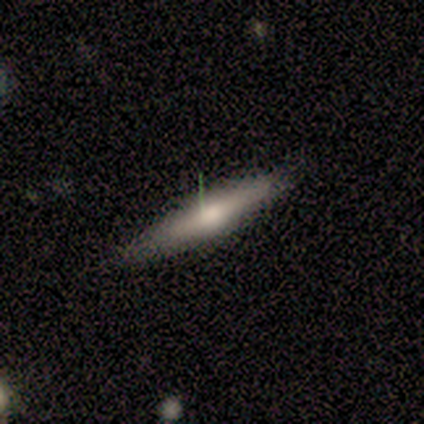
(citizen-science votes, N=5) Overall: featured or disk (60%; smooth 40%). Edge-on disk: yes (100%). Edge-on bulge: rounded (67%; none 33%). Merging: none (100%).